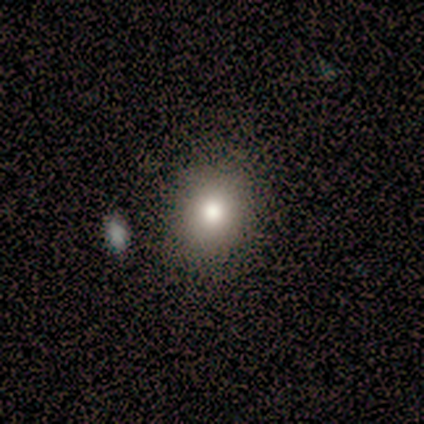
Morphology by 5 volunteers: smooth_or_featured: smooth (p=0.80) [alt: star or artifact p=0.20]
how_rounded: in between (p=0.75) [alt: round p=0.25]
merging: none (p=0.75) [alt: minor disturbance p=0.25]